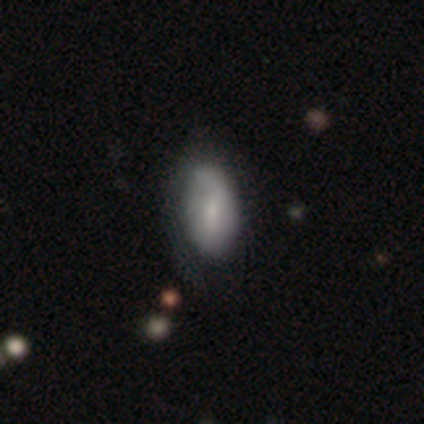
Overall: smooth (46%; featured or disk 38%). How rounded: in between (78%). Merging: none (45%; minor disturbance 36%).